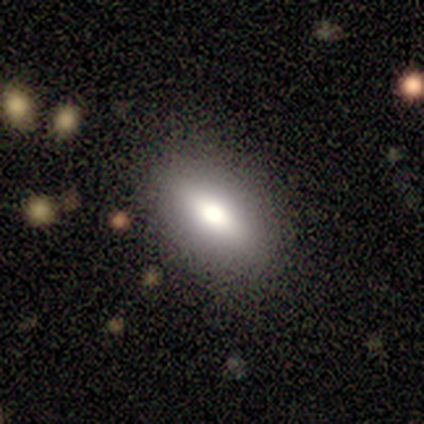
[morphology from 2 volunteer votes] Overall: smooth (50%, tied with featured or disk). How rounded: in between (100%). Merging: none (100%).